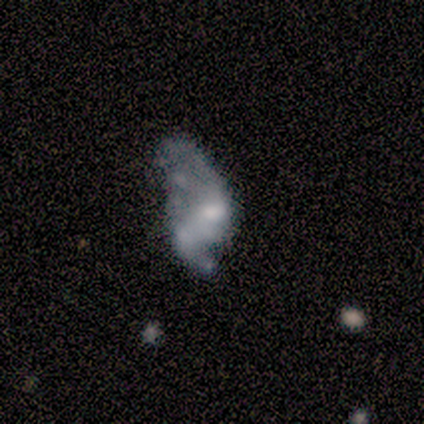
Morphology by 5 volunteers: Smooth or featured: featured or disk — 60% (smooth — 20%)
Edge-on disk: no — 100%
Bar: no — 100%
Spiral arms: no — 100%
Bulge size: small — 67% (none — 33%)
Merging: major disturbance — 50% (none — 25%)